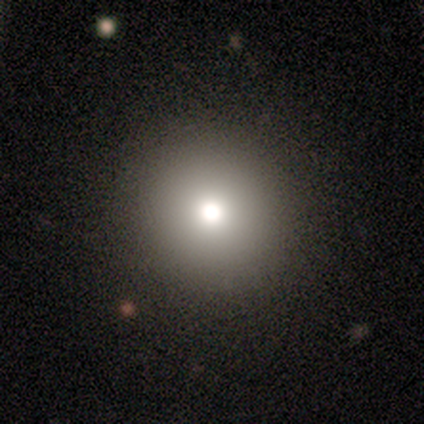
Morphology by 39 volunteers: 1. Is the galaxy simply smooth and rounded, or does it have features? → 77% smooth, 18% star or artifact, 5% featured or disk.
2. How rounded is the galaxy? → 100% round, 0% in between, 0% cigar-shaped.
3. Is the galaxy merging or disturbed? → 97% none, 3% minor disturbance, 0% major disturbance, 0% merger.